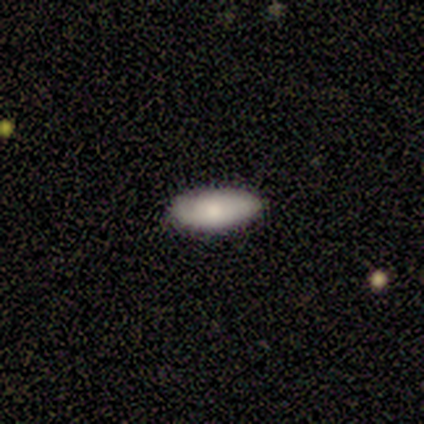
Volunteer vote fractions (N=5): Morphology: type=smooth (60%); roundness=in between (100%); merging=none (100%).